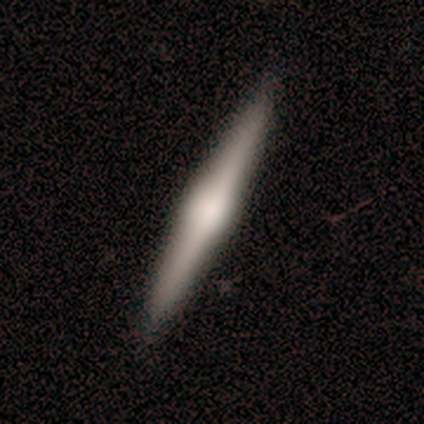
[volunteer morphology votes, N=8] Smooth or featured?
  - featured or disk: 62% *
  - smooth: 38%
  - star or artifact: 0%
Edge-on disk?
  - yes: 100% *
  - no: 0%
Edge-on bulge?
  - rounded: 60% *
  - none: 40%
  - boxy: 0%
Merging?
  - none: 100% *
  - minor disturbance: 0%
  - major disturbance: 0%
  - merger: 0%